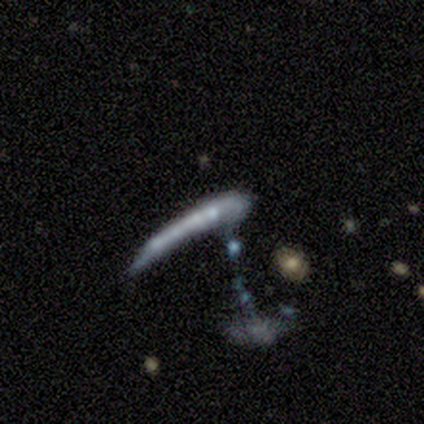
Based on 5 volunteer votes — Volunteers were most divided on "bar" (2-way tie): strong: 50%, no: 50%, weak: 0%; "spiral arms" (2-way tie): yes: 50%, no: 50%; "bulge size" (2-way tie): small: 50%, none: 50%, dominant: 0%, large: 0%, moderate: 0%. More confident: spiral winding — medium (100%); spiral arm count — 2 (100%); edge-on disk — no (67%); smooth or featured — featured or disk (60%); merging — merger (50%).